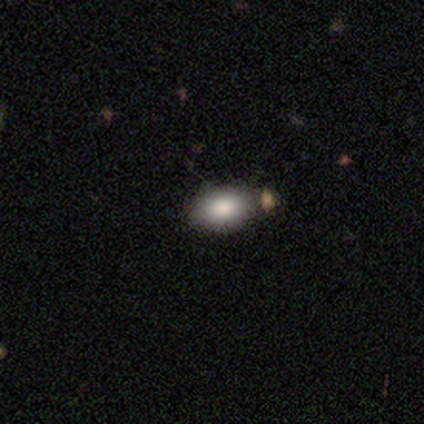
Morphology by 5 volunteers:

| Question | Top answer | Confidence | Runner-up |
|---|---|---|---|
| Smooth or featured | smooth | 60% | featured or disk (20%) |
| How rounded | in between | 100% | — |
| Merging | none | 100% | — |